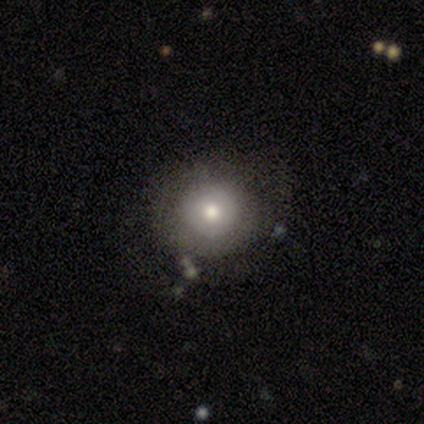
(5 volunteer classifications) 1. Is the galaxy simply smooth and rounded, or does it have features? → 60% smooth, 40% featured or disk, 0% star or artifact.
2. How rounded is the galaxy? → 100% round, 0% in between, 0% cigar-shaped.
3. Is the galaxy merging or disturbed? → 80% none, 20% minor disturbance, 0% major disturbance, 0% merger.